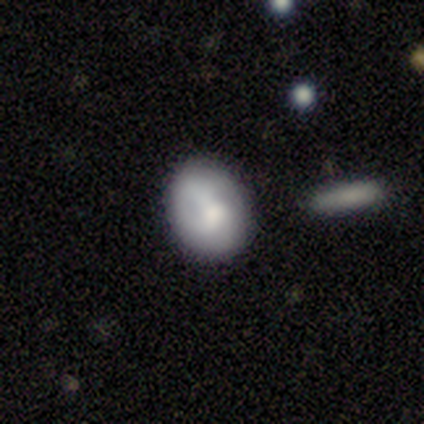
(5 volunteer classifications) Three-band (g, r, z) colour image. It shows a smooth galaxy with no disk features (100%) that is in between round and cigar-shaped (80%). Merging: none (80%).